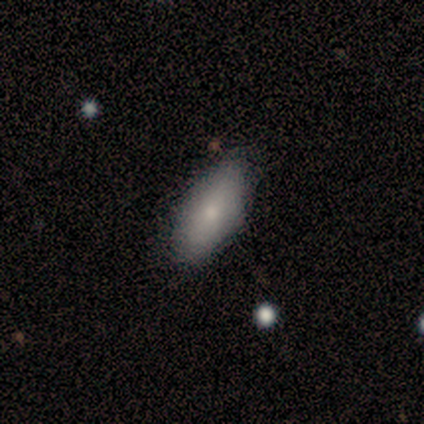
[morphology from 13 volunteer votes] smooth 92%, featured or disk 8%, star or artifact 0%. Down the decision tree: how rounded — in between (92%); merging — none (85%).